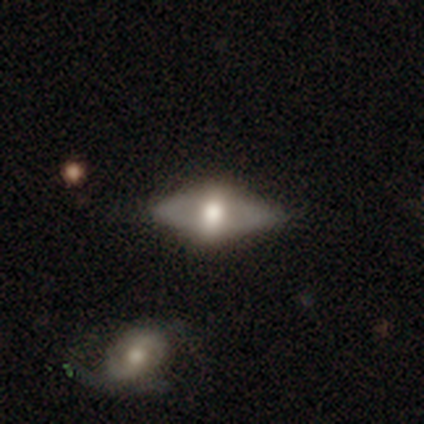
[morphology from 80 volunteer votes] A featured or disk galaxy (57%) with no bar (72%), no spiral arms (90%) and a large central bulge (59%).

Vote fractions:
- Smooth or featured? featured or disk: 57% / smooth: 39% / star or artifact: 4%
- Edge-on disk? no: 63% / yes: 37%
- Bar? no: 72% / weak: 17% / strong: 10%
- Spiral arms? no: 90% / yes: 10%
- Bulge size? large: 59% / moderate: 38% / small: 3% / dominant: 0% / none: 0%
- Merging? none: 40% / major disturbance: 5% / minor disturbance: 4% / merger: 4%